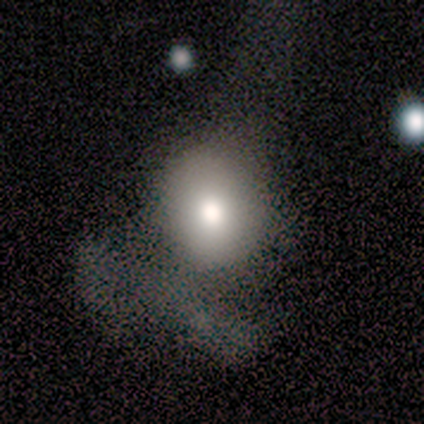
This appears to be a smooth galaxy with no disk features (67%) that is round (50%, tied with in between). Merging: minor disturbance (40%, tied with major disturbance).